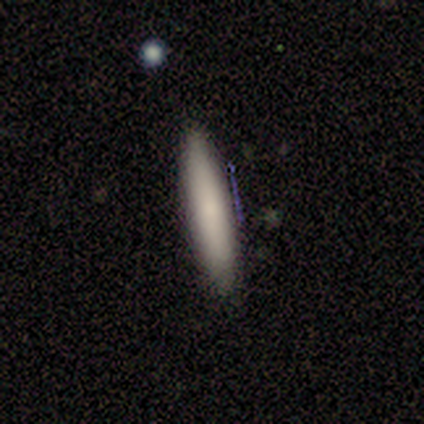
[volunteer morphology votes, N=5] This appears to be a smooth galaxy with no disk features (80%) that is cigar-shaped (100%). Merging: none (80%).